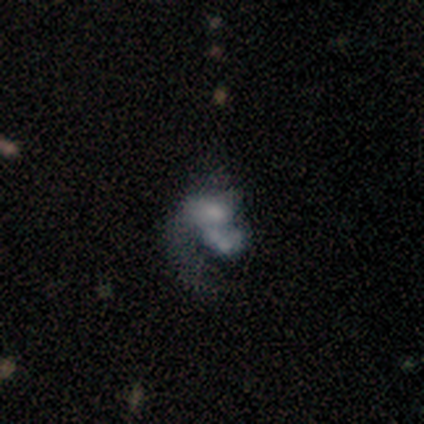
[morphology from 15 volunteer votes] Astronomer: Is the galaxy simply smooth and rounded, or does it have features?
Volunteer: featured or disk — 60%.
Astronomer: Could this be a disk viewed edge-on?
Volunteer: no — 100%.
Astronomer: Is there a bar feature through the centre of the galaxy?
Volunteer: no — 67%.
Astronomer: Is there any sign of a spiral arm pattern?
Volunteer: yes — 78%.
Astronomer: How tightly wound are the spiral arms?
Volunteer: loose — 86%.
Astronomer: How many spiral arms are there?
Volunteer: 1 — 86%.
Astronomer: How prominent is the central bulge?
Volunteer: small — 33%, tied with none at 33%.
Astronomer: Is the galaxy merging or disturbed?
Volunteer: merger — 54% (runner-up: none, 31%).